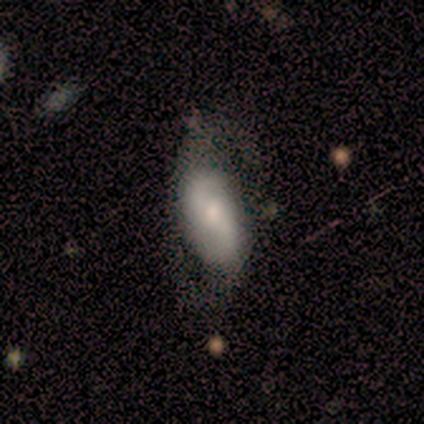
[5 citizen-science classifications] Smooth or featured: featured or disk — 60% (smooth — 40%)
Edge-on disk: no — 100%
Bar: weak — 67% (no — 33%)
Spiral arms: yes — 67% (no — 33%)
Spiral winding: loose — 100%
Spiral arm count: 2 — 100%
Bulge size: small — 67% (moderate — 33%)
Merging: none — 60% (minor disturbance — 40%)